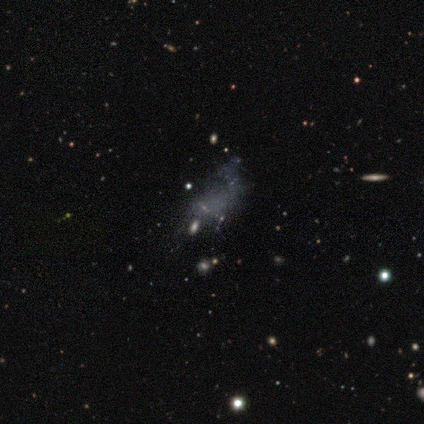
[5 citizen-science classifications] Volunteers were most divided on "smooth or featured": featured or disk: 60%, smooth: 20%, star or artifact: 20%. More confident: edge-on disk — no (100%); bar — no (100%); spiral arms — no (100%); bulge size — none (100%); merging — none (75%).